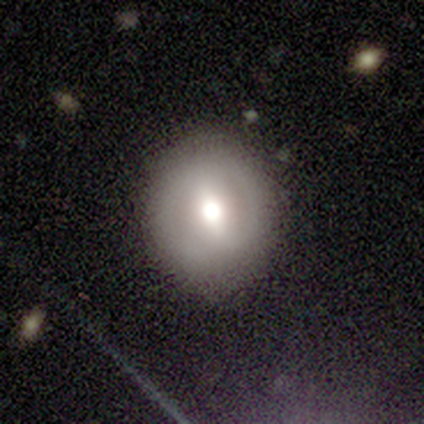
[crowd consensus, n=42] smooth_or_featured: featured or disk (p=0.50) [alt: smooth p=0.43]
disk_edge_on: no (p=0.76) [alt: yes p=0.24]
bar: strong (p=0.50) [alt: weak p=0.25]
has_spiral_arms: no (p=0.81) [alt: yes p=0.19]
bulge_size: moderate (p=0.56) [alt: large p=0.31]
merging: none (p=0.82) [alt: minor disturbance p=0.15]